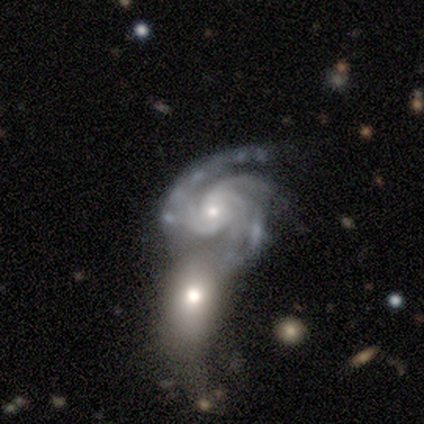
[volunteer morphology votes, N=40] smooth_or_featured: featured or disk (p=0.95) [alt: star or artifact p=0.05]
disk_edge_on: no (p=0.92) [alt: yes p=0.08]
bar: no (p=0.57) [alt: weak p=0.40]
has_spiral_arms: yes (p=0.97) [alt: no p=0.03]
spiral_winding: medium (p=0.50) [alt: tight p=0.44]
spiral_arm_count: 3 (p=0.47) [alt: 2 p=0.18]
bulge_size: small (p=0.51) [alt: moderate p=0.40]
merging: merger (p=0.47) [alt: none p=0.24]